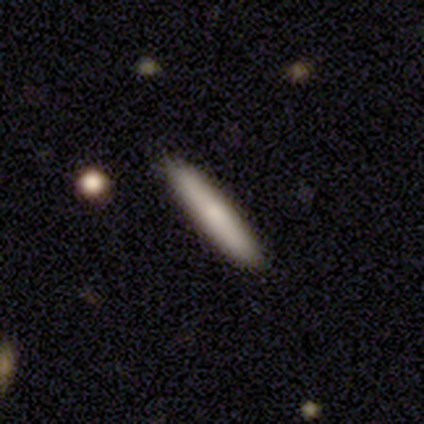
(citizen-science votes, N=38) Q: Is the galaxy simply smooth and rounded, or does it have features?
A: smooth — 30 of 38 (79%).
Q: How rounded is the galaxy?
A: cigar-shaped — 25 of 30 (83%).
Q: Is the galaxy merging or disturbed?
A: none — 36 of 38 (95%).